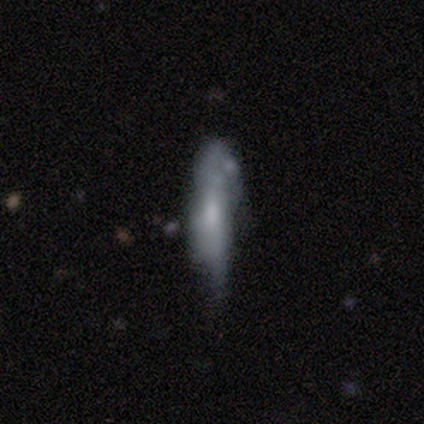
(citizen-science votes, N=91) Volunteers were most divided on "smooth or featured": featured or disk: 46%, smooth: 45%, star or artifact: 9%. Remaining: spiral arms — no (60%); bar — no (60%); edge-on disk — no (60%); merging — minor disturbance (43%); bulge size — moderate (40%).